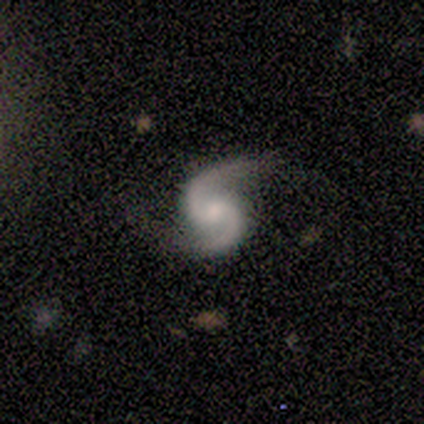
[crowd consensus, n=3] Smooth or featured?
  - featured or disk: 100% *
  - smooth: 0%
  - star or artifact: 0%
Edge-on disk?
  - no: 100% *
  - yes: 0%
Bar?
  - no: 67% *
  - weak: 33%
  - strong: 0%
Spiral arms?
  - yes: 100% *
  - no: 0%
Spiral winding?
  - medium: 67% *
  - loose: 33%
  - tight: 0%
Spiral arm count?
  - 2: 100% *
  - 1: 0%
  - 3: 0%
  - 4: 0%
  - more than 4: 0%
  - can't tell: 0%
Bulge size?
  - small: 67% *
  - moderate: 33%
  - dominant: 0%
  - large: 0%
  - none: 0%
Merging?
  - none: 67% *
  - minor disturbance: 33%
  - major disturbance: 0%
  - merger: 0%